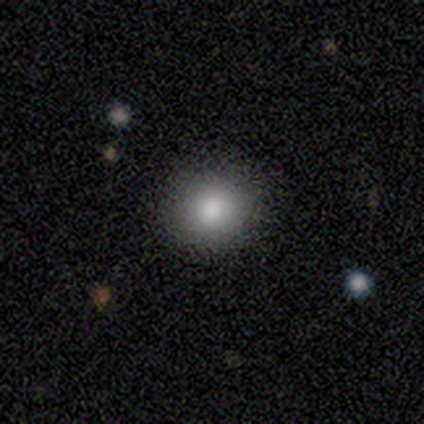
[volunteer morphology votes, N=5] Q: Smooth or featured?
A: smooth (60%); runner-up: featured or disk (20%)
Q: How rounded?
A: round (67%); runner-up: in between (33%)
Q: Merging?
A: none (75%); runner-up: minor disturbance (25%)